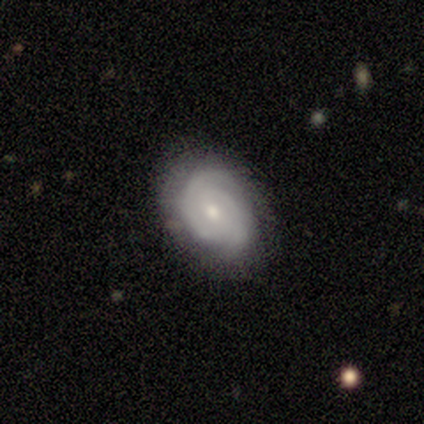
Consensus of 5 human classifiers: Smooth or featured: featured or disk — 100%
Edge-on disk: no — 100%
Bar: no — 100%
Spiral arms: yes — 80% (no — 20%)
Spiral winding: tight — 100%
Spiral arm count: 2 — 100%
Bulge size: moderate — 60% (small — 40%)
Merging: none — 80% (minor disturbance — 20%)